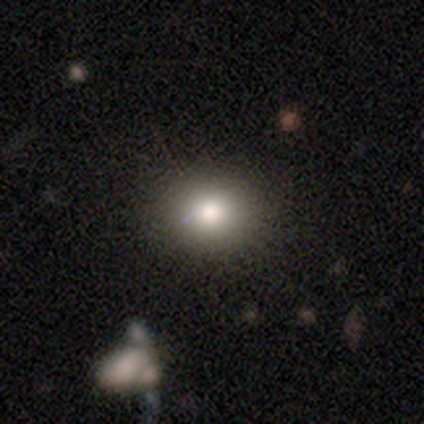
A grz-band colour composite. It shows a smooth galaxy with no disk features (80%) that is round (75%). Merging: none (100%).